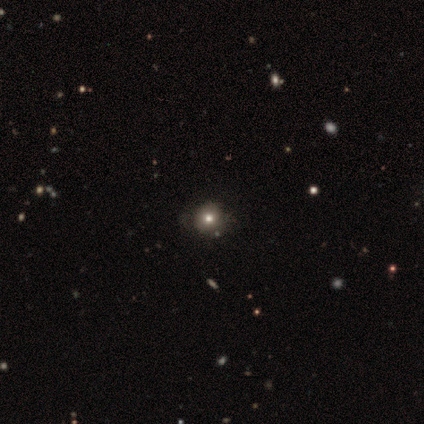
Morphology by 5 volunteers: A smooth galaxy with no disk features (60%) that is round (100%).

Vote fractions:
- Smooth or featured? smooth: 60% / featured or disk: 20% / star or artifact: 20%
- How rounded? round: 100% / in between: 0% / cigar-shaped: 0%
- Merging? none: 75% / major disturbance: 25% / minor disturbance: 0% / merger: 0%